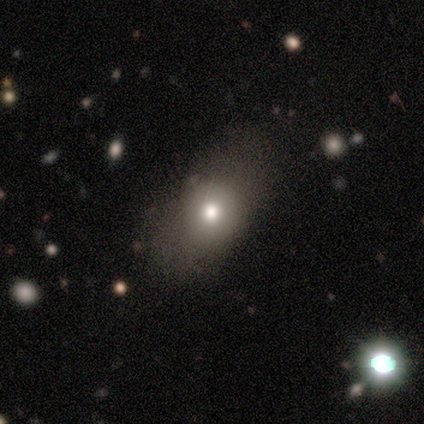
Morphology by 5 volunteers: smooth 80%, featured or disk 20%, star or artifact 0%. Down the decision tree: how rounded — in between (75%); merging — none (100%).